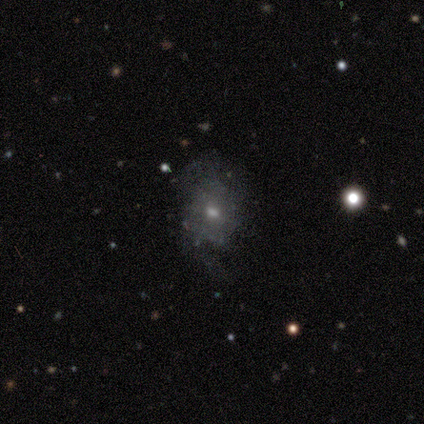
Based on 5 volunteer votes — A smooth galaxy with no disk features (80%) that is round (50%, tied with in between).

Vote fractions:
- Smooth or featured? smooth: 80% / featured or disk: 20% / star or artifact: 0%
- How rounded? round: 50% (tied) / in between: 50% (tied) / cigar-shaped: 0%
- Merging? none: 80% / major disturbance: 20% / minor disturbance: 0% / merger: 0%